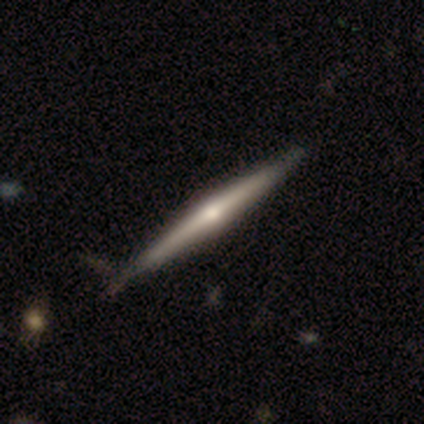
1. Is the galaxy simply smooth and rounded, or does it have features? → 80% featured or disk, 20% smooth, 0% star or artifact.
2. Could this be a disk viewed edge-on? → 100% yes, 0% no.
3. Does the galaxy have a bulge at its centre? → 75% rounded, 25% none, 0% boxy.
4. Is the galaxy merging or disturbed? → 60% none, 40% minor disturbance, 0% major disturbance, 0% merger.